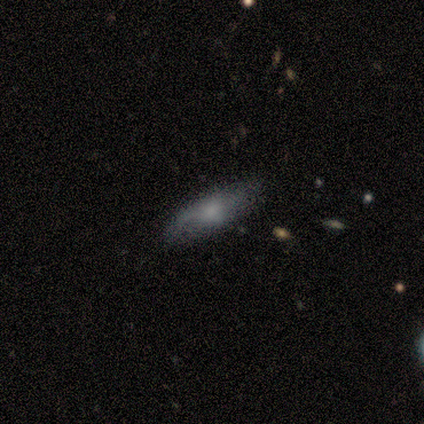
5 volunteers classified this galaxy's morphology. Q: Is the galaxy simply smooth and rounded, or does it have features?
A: smooth — 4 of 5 (80%).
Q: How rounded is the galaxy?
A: in between — 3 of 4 (75%).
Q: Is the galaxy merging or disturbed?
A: none — 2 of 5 (40%, tied with minor disturbance).